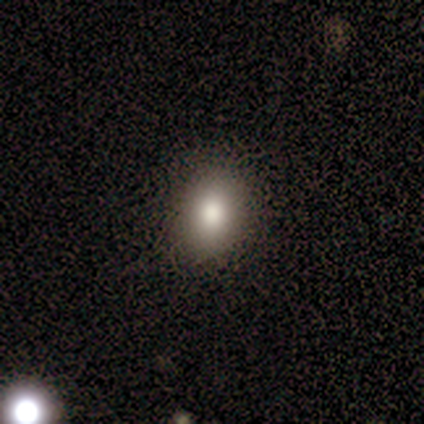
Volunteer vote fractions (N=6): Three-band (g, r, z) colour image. It shows a smooth galaxy with no disk features (83%) that is in between round and cigar-shaped (60%). Merging: none (100%).